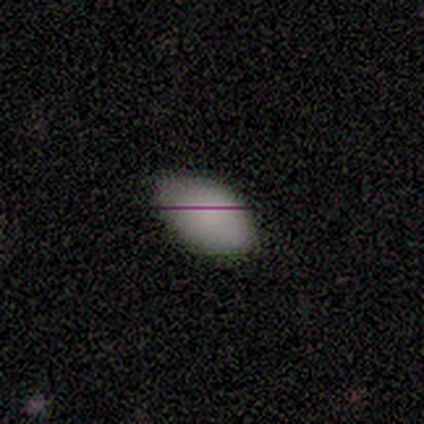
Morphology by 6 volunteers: smooth 100%, featured or disk 0%, star or artifact 0%. Down the decision tree: how rounded — in between (100%); merging — none (67%).